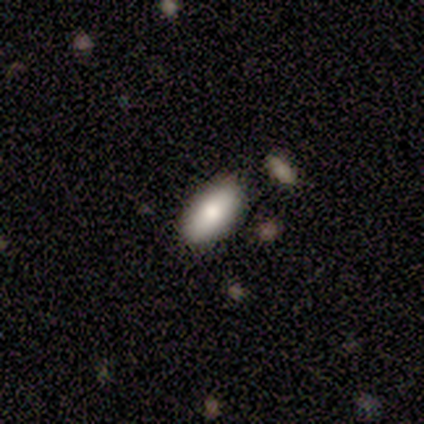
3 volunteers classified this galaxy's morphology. A smooth galaxy with no disk features (100%) that is in between round and cigar-shaped (100%). Merging: none (67%).